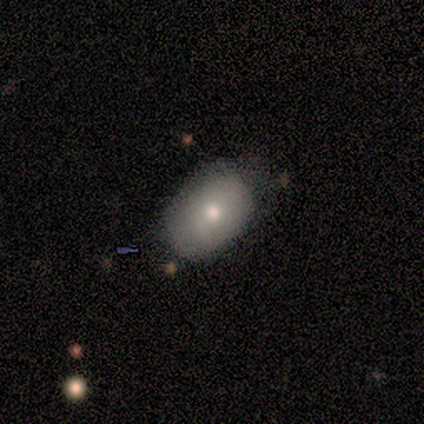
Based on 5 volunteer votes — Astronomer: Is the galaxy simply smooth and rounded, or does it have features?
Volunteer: smooth — 40%, tied with featured or disk at 40%.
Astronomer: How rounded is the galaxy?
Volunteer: in between — 100%.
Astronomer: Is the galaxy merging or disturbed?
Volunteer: none — 50%, tied with minor disturbance at 50%.